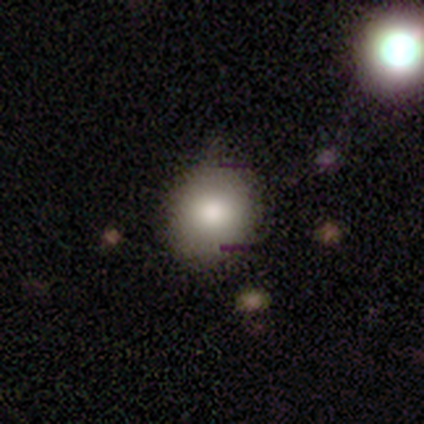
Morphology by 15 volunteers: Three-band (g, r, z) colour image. It shows a smooth galaxy with no disk features (80%) that is round (67%). Merging: none (77%).